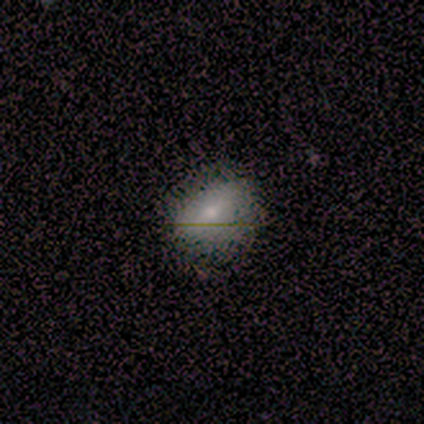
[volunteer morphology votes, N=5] smooth_or_featured: smooth (p=0.80) [alt: featured or disk p=0.20]
how_rounded: in between (p=0.75) [alt: round p=0.25]
merging: none (p=1.00)